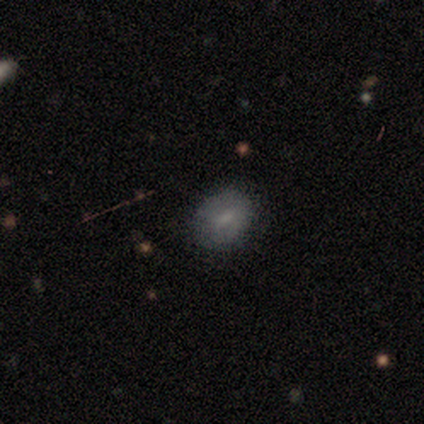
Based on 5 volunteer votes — Smooth or featured? 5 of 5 (100%) said smooth. How rounded? 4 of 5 (80%) said in between. Merging? 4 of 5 (80%) said none.